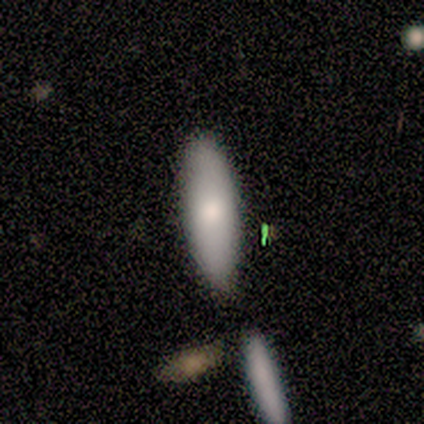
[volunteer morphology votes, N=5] A smooth galaxy with no disk features (80%) that is cigar-shaped (75%).

Vote fractions:
- Smooth or featured? smooth: 80% / featured or disk: 20% / star or artifact: 0%
- How rounded? cigar-shaped: 75% / in between: 25% / round: 0%
- Merging? none: 80% / minor disturbance: 20% / major disturbance: 0% / merger: 0%